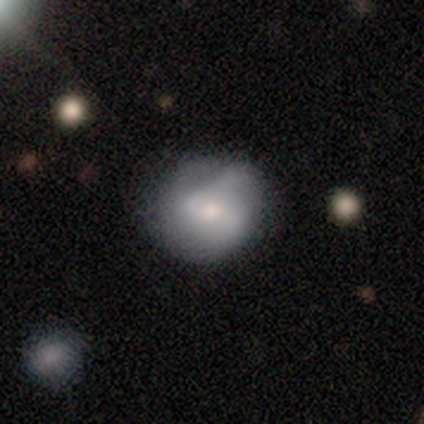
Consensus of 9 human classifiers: A smooth galaxy with no disk features (56%) that is round (80%). Merging: none (56%).